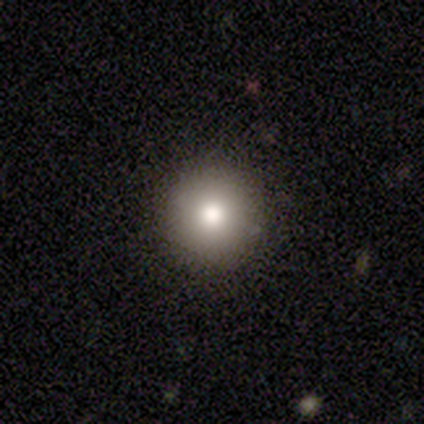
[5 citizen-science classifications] Smooth or featured: smooth — 60% (star or artifact — 40%)
How rounded: round — 100%
Merging: none — 100%